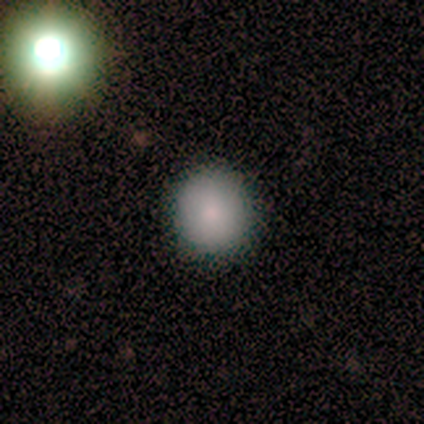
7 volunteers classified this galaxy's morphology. This is clearly a smooth galaxy (86%). How rounded: clearly round (100%). Merging: clearly none (100%).